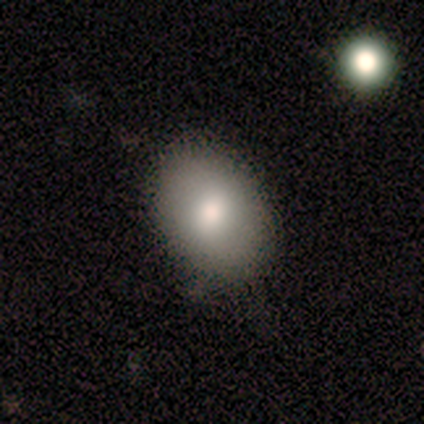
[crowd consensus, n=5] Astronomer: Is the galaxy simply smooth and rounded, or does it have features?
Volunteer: smooth — 60% (runner-up: featured or disk, 40%).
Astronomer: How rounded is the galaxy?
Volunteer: in between — 100%.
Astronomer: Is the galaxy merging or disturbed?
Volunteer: none — 100%.